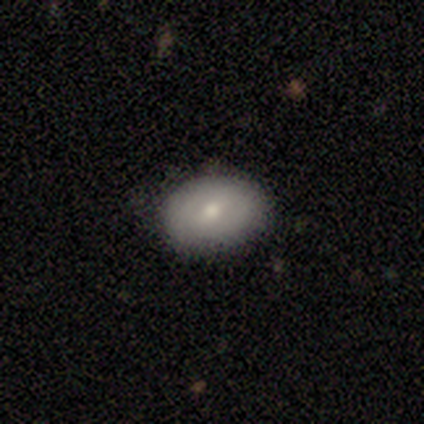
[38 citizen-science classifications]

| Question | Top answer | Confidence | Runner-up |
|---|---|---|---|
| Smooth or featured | smooth | 68% | featured or disk (24%) |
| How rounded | in between | 88% | round (8%) |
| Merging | none | 80% | minor disturbance (20%) |